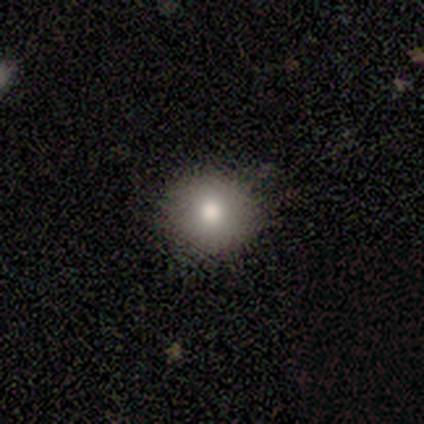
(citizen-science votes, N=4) Smooth or featured?
  - smooth: 100% *
  - featured or disk: 0%
  - star or artifact: 0%
How rounded?
  - round: 100% *
  - in between: 0%
  - cigar-shaped: 0%
Merging?
  - none: 100% *
  - minor disturbance: 0%
  - major disturbance: 0%
  - merger: 0%